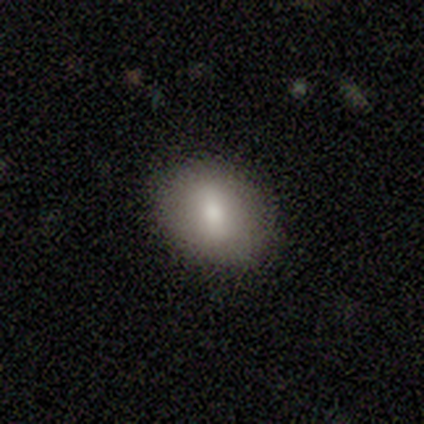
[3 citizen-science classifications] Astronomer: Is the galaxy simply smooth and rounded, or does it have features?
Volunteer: smooth — 100%.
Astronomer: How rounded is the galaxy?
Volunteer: round — 67%.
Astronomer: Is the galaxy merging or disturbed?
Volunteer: none — 67%.